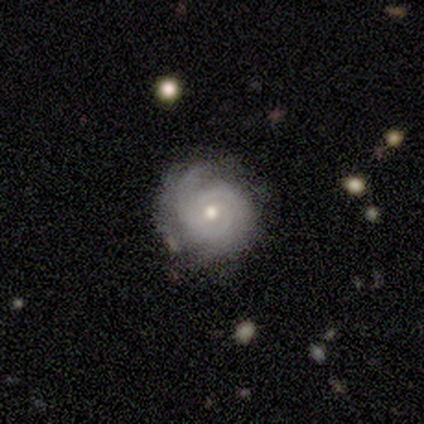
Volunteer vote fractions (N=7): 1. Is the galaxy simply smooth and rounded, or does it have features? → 71% featured or disk, 29% smooth, 0% star or artifact.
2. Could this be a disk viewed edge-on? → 100% no, 0% yes.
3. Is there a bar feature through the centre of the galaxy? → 40% weak (tied), 40% no (tied), 20% strong.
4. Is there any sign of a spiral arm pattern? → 100% yes, 0% no.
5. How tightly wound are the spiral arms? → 60% medium, 40% tight, 0% loose.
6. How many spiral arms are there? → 40% 2 (tied), 40% 3 (tied), 20% can't tell, 0% 1, 0% 4, 0% more than 4.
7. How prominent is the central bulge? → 60% moderate, 40% small, 0% dominant, 0% large, 0% none.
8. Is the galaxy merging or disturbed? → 57% minor disturbance, 43% none, 0% major disturbance, 0% merger.